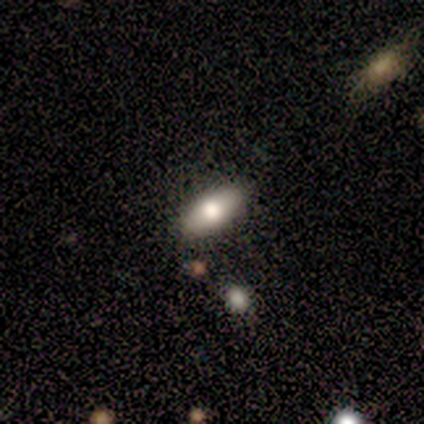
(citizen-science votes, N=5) smooth 80%, featured or disk 20%, star or artifact 0%. Down the decision tree: how rounded — in between (100%); merging — none (80%).